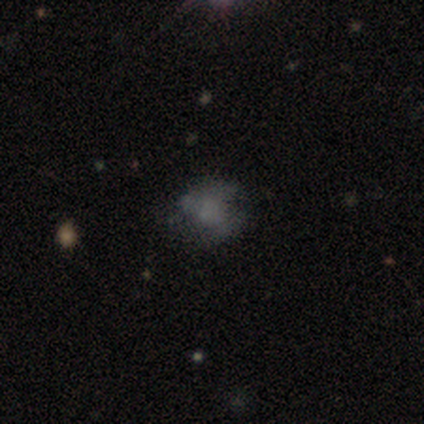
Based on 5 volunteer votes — Volunteers were most divided on "smooth or featured" (2-way tie): smooth: 40%, star or artifact: 40%, featured or disk: 20%. More confident: how rounded — round (100%); merging — none (67%).